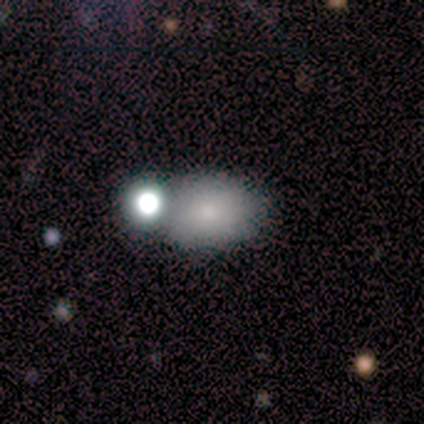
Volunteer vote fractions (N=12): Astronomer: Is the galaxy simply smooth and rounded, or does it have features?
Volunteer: smooth — 75%.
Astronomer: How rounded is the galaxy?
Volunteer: in between — 67%.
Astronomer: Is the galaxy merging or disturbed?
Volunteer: none — 55%.